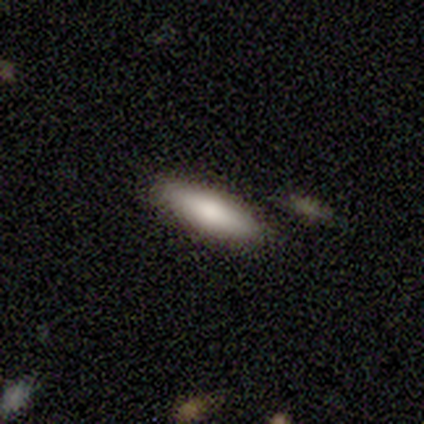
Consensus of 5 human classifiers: smooth-or-featured: smooth: 60% | featured or disk: 40% | star or artifact: 0%
  how-rounded: cigar-shaped: 67% | in between: 33% | round: 0%
  merging: none: 80% | merger: 20% | minor disturbance: 0% | major disturbance: 0%